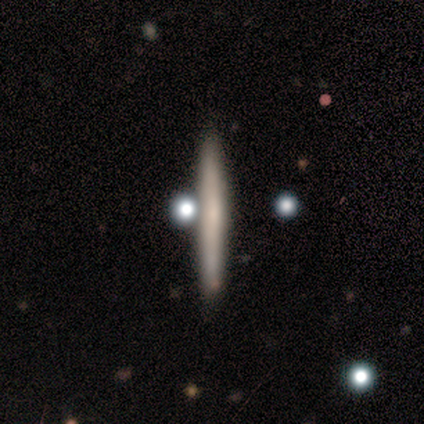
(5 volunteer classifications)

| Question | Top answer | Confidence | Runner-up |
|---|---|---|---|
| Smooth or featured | featured or disk | 80% | smooth (20%) |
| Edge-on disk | yes | 100% | — |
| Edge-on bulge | none | 75% | rounded (25%) |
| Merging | none | 60% | minor disturbance (20%) |